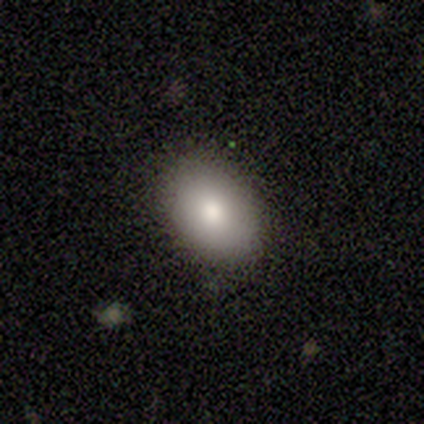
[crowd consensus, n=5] Smooth or featured? smooth (80%)
How rounded? in between (100%)
Merging? none (80%)